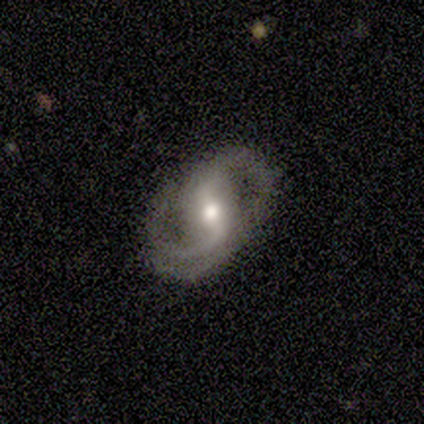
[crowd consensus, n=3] Smooth or featured? 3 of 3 (100%) said featured or disk. Edge-on disk? 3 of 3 (100%) said no. Bar? 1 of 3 (33%, tied with weak and no) said strong. Spiral arms? 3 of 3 (100%) said yes. Spiral winding? 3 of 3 (100%) said medium. Spiral arm count? 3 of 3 (100%) said 2. Bulge size? 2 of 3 (67%) said small. Merging? 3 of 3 (100%) said none.